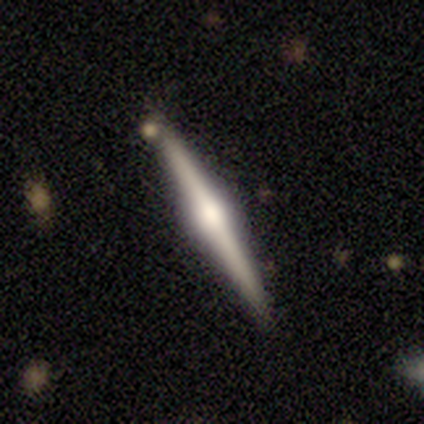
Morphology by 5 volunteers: A featured or disk galaxy (80%) viewed edge-on (100%) with a rounded central bulge (100%). Merging: none (80%).